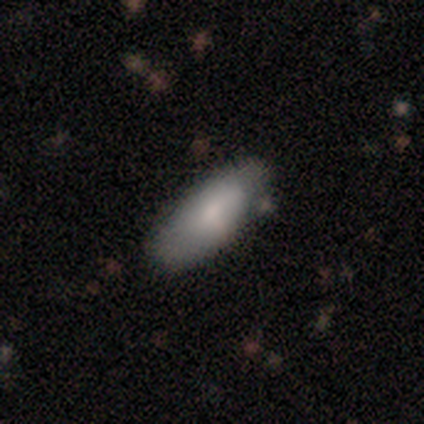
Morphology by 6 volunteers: Smooth or featured? 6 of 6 (100%) said smooth. How rounded? 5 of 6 (83%) said in between. Merging? 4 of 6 (67%) said none.